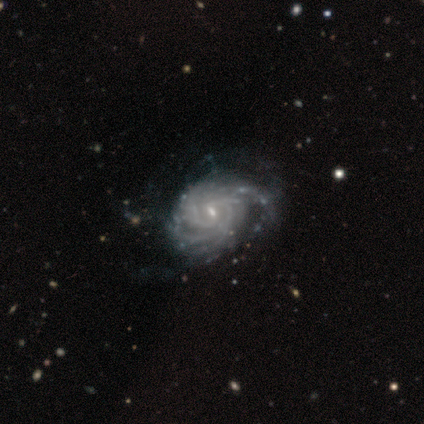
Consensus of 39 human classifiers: Smooth or featured? 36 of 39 (92%) said featured or disk. Edge-on disk? 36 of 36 (100%) said no. Bar? 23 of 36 (64%) said weak. Spiral arms? 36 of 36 (100%) said yes. Spiral winding? 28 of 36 (78%) said tight. Spiral arm count? 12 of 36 (33%) said more than 4. Bulge size? 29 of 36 (81%) said small. Merging? 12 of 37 (32%) said none.